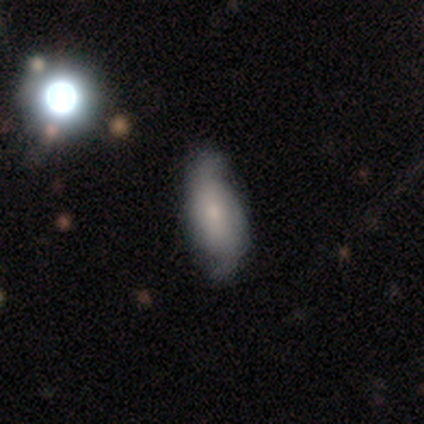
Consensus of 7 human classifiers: Smooth or featured: featured or disk — 71% (smooth — 14%)
Edge-on disk: no — 100%
Bar: weak — 60% (no — 40%)
Spiral arms: yes — 100%
Spiral winding: loose — 100%
Spiral arm count: 2 — 100%
Bulge size: small — 60% (dominant — 20%)
Merging: none — 67% (minor disturbance — 17%)